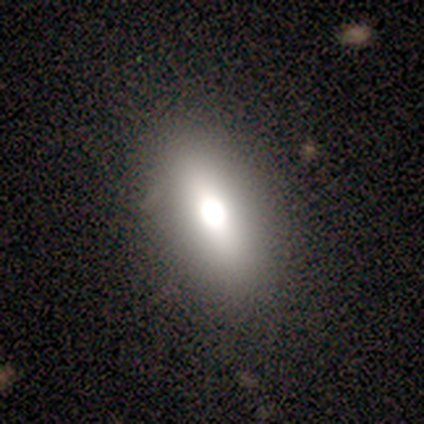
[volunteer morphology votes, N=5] A smooth galaxy with no disk features (40%, tied with star or artifact) that is in between round and cigar-shaped (100%). Merging: none (100%).